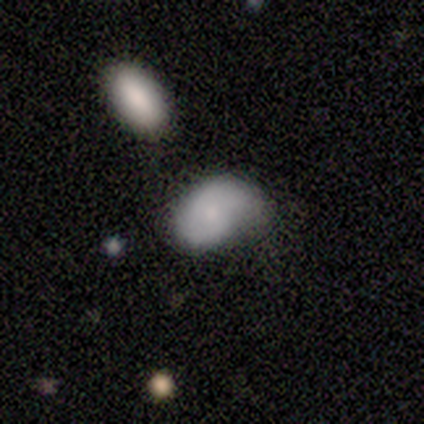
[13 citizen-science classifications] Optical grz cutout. It shows a smooth galaxy with no disk features (62%) that is in between round and cigar-shaped (88%). Merging: minor disturbance (69%).